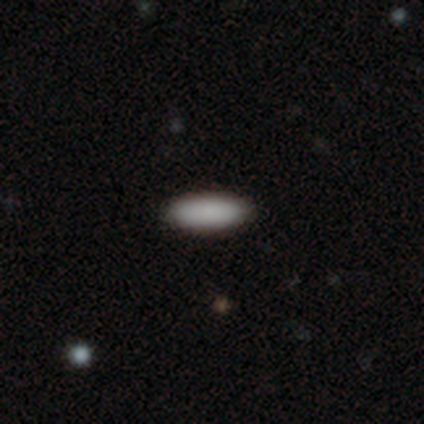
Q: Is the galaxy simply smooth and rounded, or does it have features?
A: smooth — 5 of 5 (100%).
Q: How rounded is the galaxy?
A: cigar-shaped — 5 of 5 (100%).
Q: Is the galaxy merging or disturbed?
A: none — 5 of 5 (100%).